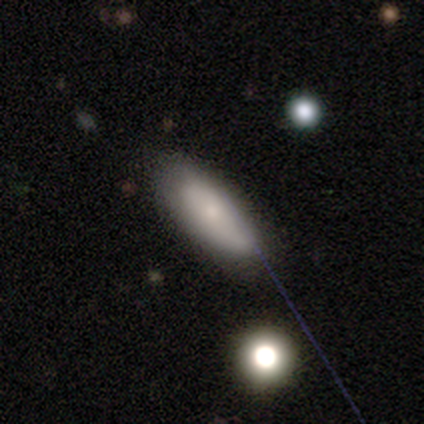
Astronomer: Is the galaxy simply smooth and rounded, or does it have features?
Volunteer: smooth — 78%.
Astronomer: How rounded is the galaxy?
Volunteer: in between — 50%, tied with cigar-shaped at 50%.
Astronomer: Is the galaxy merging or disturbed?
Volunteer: none — 71%.